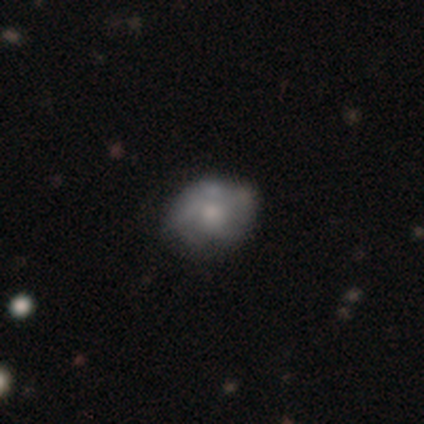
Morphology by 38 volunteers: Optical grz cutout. It shows a smooth galaxy with no disk features (50%) that is in between round and cigar-shaped (53%). Merging: none (61%).